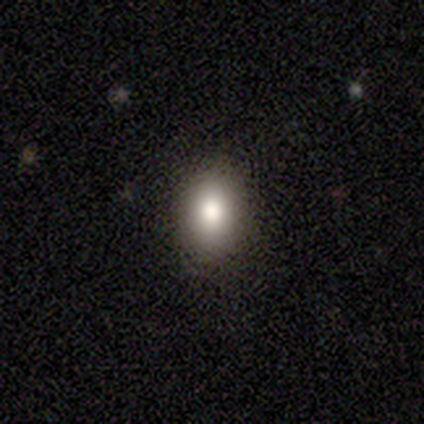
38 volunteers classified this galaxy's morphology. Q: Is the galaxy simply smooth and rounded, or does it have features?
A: smooth — 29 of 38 (76%).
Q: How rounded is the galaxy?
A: in between — 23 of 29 (79%).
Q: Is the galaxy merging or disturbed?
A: none — 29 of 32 (91%).